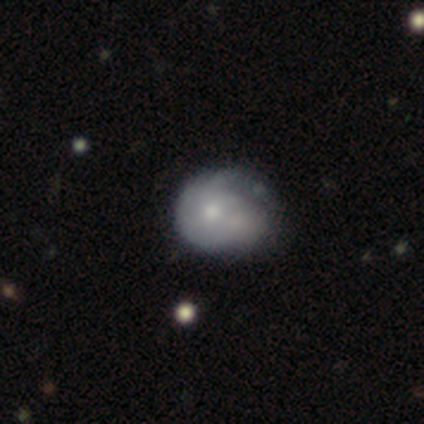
Smooth or featured? 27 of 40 (68%) said smooth. How rounded? 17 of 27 (63%) said round. Merging? 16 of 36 (44%) said minor disturbance.